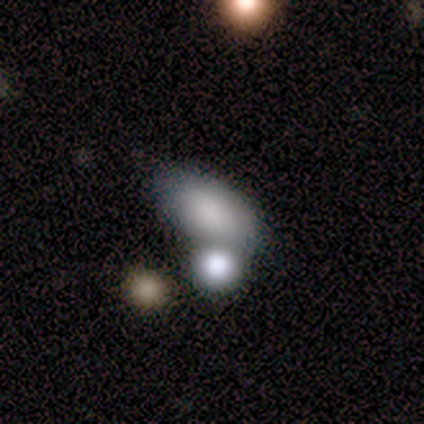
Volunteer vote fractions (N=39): Morphology: type=smooth (87%); roundness=in between (91%); merging=none (56%).